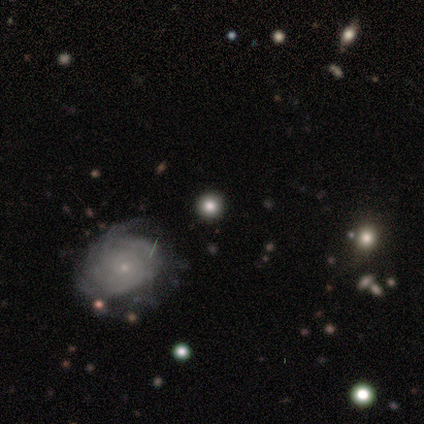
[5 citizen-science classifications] Smooth or featured: star or artifact — 60% (featured or disk — 40%)